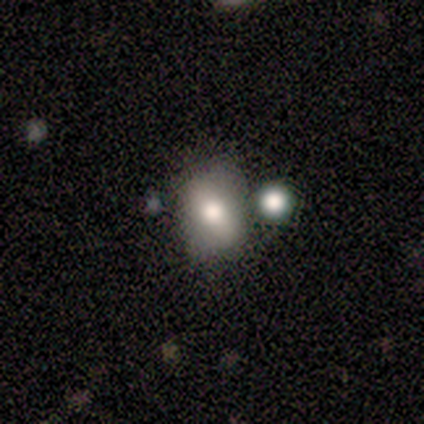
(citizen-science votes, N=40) smooth_or_featured: smooth (p=0.68) [alt: featured or disk p=0.28]
how_rounded: in between (p=0.63) [alt: round p=0.33]
merging: none (p=0.37) [alt: minor disturbance p=0.26]